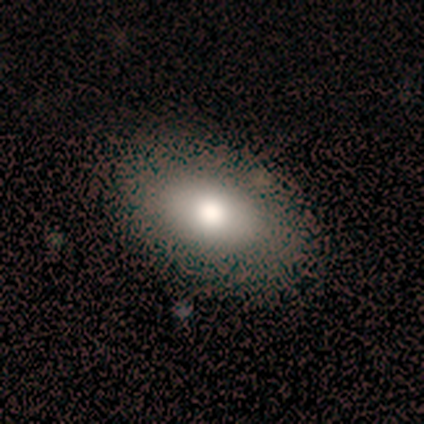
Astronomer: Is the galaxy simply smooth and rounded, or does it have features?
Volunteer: smooth — 67%.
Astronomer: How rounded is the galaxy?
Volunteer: in between — 100%.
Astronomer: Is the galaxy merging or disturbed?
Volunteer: none — 86%.